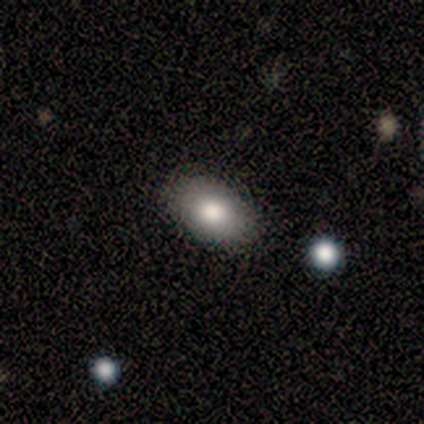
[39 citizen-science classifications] smooth 90%, featured or disk 8%, star or artifact 3%. Down the decision tree: how rounded — in between (89%); merging — none (89%).